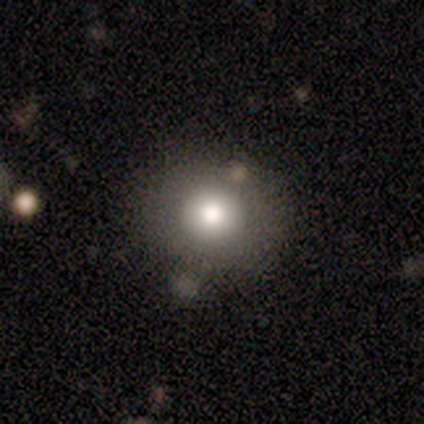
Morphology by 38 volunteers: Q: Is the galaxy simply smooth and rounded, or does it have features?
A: smooth — 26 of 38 (68%).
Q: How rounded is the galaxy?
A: round — 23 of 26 (88%).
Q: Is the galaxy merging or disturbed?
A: none — 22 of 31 (71%).